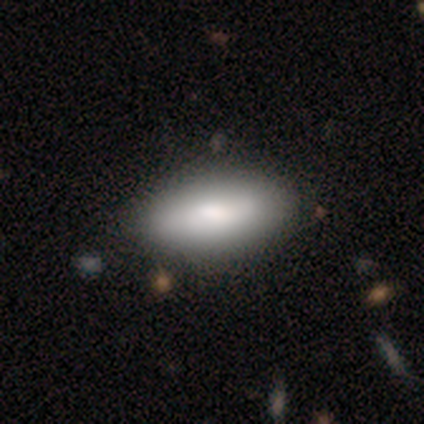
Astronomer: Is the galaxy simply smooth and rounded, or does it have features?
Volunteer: smooth — 83%.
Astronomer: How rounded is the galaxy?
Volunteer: in between — 100%.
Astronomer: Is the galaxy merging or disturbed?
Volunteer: none — 100%.